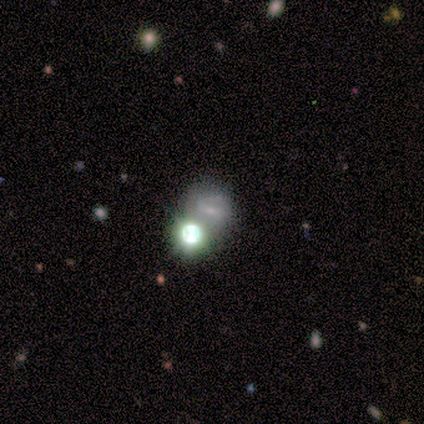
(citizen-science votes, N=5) This is clearly a featured or disk galaxy (80%). It is possibly viewed edge-on (50%, tied with no). Edge-on bulge: clearly rounded (100%). Merging: likely none (75%).